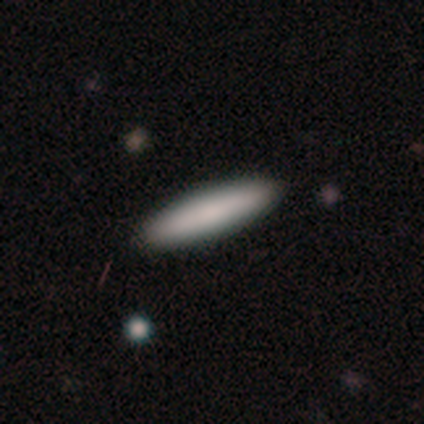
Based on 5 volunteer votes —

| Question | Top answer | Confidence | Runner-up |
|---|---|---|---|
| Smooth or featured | smooth | 60% | featured or disk (20%) |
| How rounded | cigar-shaped | 100% | — |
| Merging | none | 100% | — |